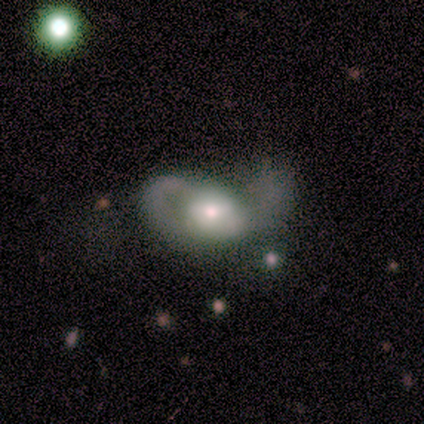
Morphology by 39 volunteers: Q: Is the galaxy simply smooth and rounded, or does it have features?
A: featured or disk — 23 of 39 (59%).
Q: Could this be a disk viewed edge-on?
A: no — 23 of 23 (100%).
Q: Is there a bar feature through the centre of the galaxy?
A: no — 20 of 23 (87%).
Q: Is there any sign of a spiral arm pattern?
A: no — 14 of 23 (61%).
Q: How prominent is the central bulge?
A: moderate — 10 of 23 (43%).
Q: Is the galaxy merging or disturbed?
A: major disturbance — 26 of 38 (68%).